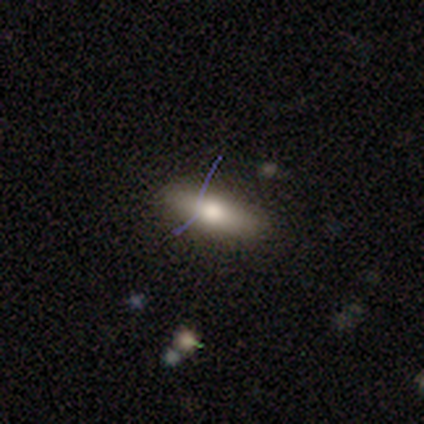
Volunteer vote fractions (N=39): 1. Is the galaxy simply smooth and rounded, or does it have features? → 62% smooth, 26% featured or disk, 13% star or artifact.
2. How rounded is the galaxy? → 62% in between, 38% cigar-shaped, 0% round.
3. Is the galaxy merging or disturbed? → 65% none, 32% minor disturbance, 3% major disturbance, 0% merger.